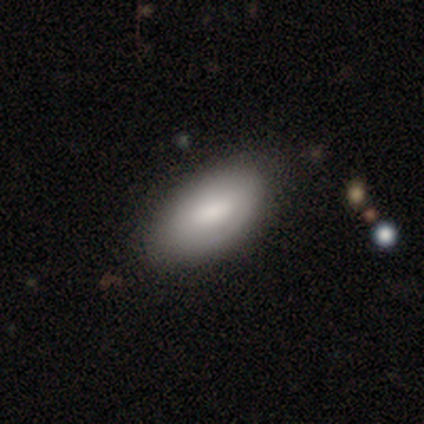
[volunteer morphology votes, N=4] A smooth galaxy with no disk features (75%) that is in between round and cigar-shaped (100%).

Vote fractions:
- Smooth or featured? smooth: 75% / star or artifact: 25% / featured or disk: 0%
- How rounded? in between: 100% / round: 0% / cigar-shaped: 0%
- Merging? none: 67% / minor disturbance: 33% / major disturbance: 0% / merger: 0%